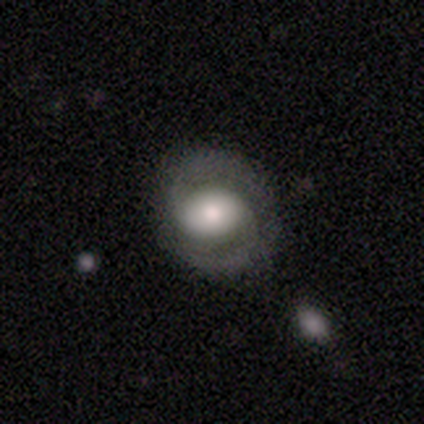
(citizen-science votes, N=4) Smooth or featured? featured or disk (100%)
Edge-on disk? no (75%)
Bar? no (67%)
Spiral arms? yes (100%)
Spiral winding? tight (33%, tied with medium and loose)
Spiral arm count? 2 (100%)
Bulge size? large (100%)
Merging? none (100%)